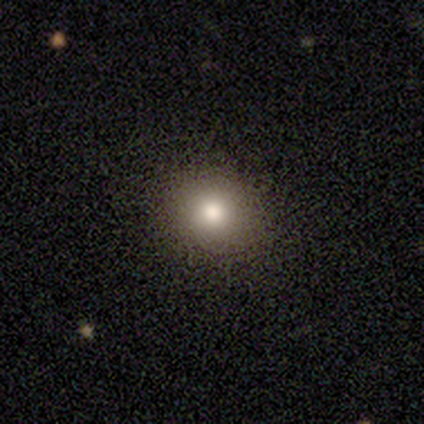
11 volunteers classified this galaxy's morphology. smooth_or_featured: smooth (p=0.91) [alt: star or artifact p=0.09]
how_rounded: round (p=0.80) [alt: in between p=0.20]
merging: none (p=1.00)